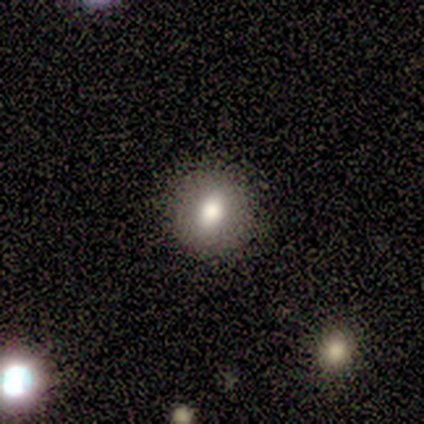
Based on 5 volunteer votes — Overall: smooth (80%). How rounded: round (100%). Merging: none (100%).